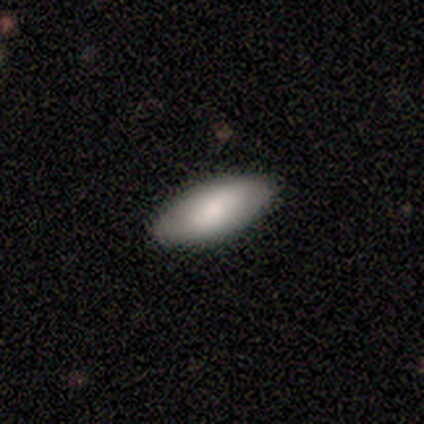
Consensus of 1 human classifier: Smooth or featured?
  - featured or disk: 100% *
  - smooth: 0%
  - star or artifact: 0%
Edge-on disk?
  - no: 100% *
  - yes: 0%
Bar?
  - weak: 100% *
  - strong: 0%
  - no: 0%
Spiral arms?
  - no: 100% *
  - yes: 0%
Bulge size?
  - moderate: 100% *
  - dominant: 0%
  - large: 0%
  - small: 0%
  - none: 0%
Merging?
  - none: 100% *
  - minor disturbance: 0%
  - major disturbance: 0%
  - merger: 0%